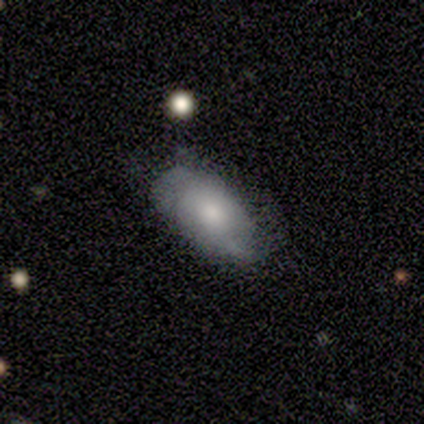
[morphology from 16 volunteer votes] type=smooth (75%); roundness=in between (83%); merging=none (56%).